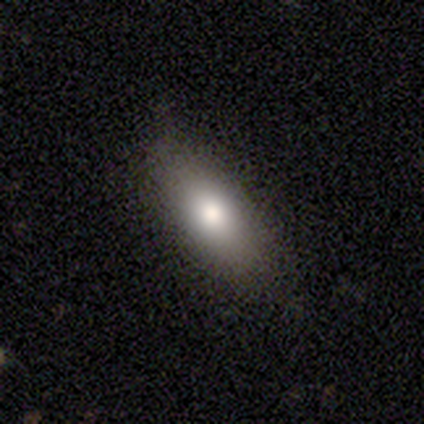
smooth-or-featured: smooth: 100% | featured or disk: 0% | star or artifact: 0%
  how-rounded: in between: 80% | cigar-shaped: 20% | round: 0%
  merging: none: 60% | minor disturbance: 20% | major disturbance: 20% | merger: 0%